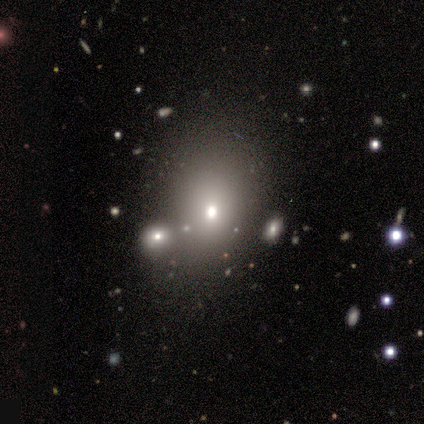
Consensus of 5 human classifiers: Q: Smooth or featured?
A: star or artifact (60%); runner-up: smooth (20%)